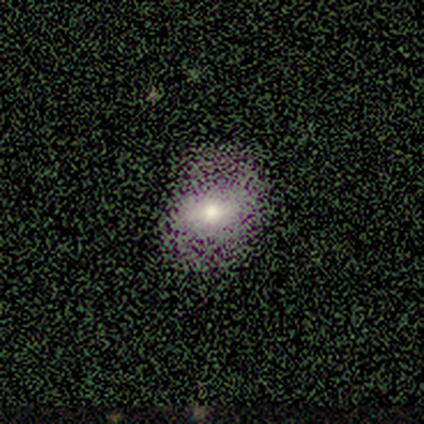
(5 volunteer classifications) A smooth galaxy with no disk features (40%, tied with star or artifact) that is in between round and cigar-shaped (100%). Merging: none (67%).